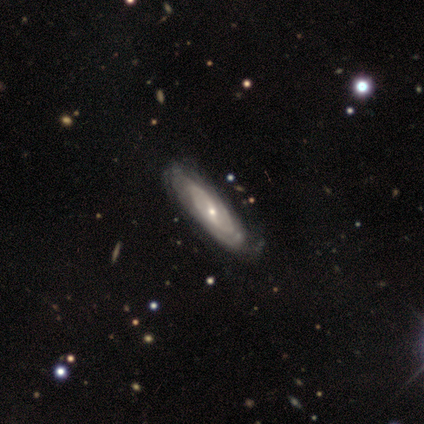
smooth-or-featured: featured or disk: 80% | star or artifact: 20% | smooth: 0%
  disk-edge-on: no: 100% | yes: 0%
    bar: weak: 75% | strong: 25% | no: 0%
    has-spiral-arms: yes: 100% | no: 0%
      spiral-winding: medium: 50% | tight: 25% | loose: 25%
      spiral-arm-count: 2: 75% | can't tell: 25% | 1: 0% | 3: 0% | 4: 0% | more than 4: 0%
    bulge-size: small: 75% | moderate: 25% | dominant: 0% | large: 0% | none: 0%
  merging: none: 50% (tied) | minor disturbance: 50% (tied) | major disturbance: 0% | merger: 0%